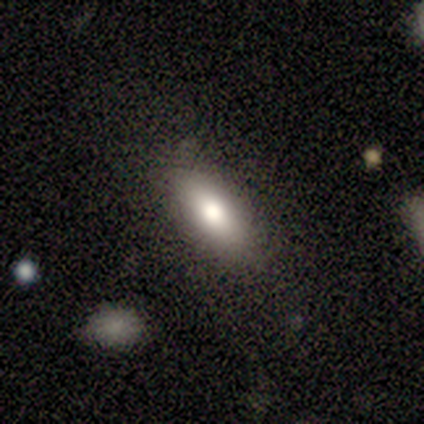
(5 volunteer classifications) A smooth galaxy with no disk features (100%) that is in between round and cigar-shaped (100%).

Vote fractions:
- Smooth or featured? smooth: 100% / featured or disk: 0% / star or artifact: 0%
- How rounded? in between: 100% / round: 0% / cigar-shaped: 0%
- Merging? none: 80% / major disturbance: 20% / minor disturbance: 0% / merger: 0%